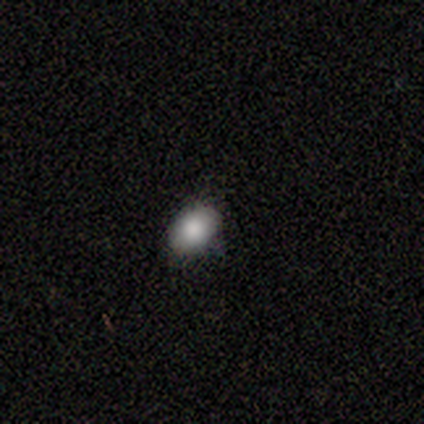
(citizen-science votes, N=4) This is clearly a smooth galaxy (100%). How rounded: clearly in between (100%). Merging: clearly none (100%).